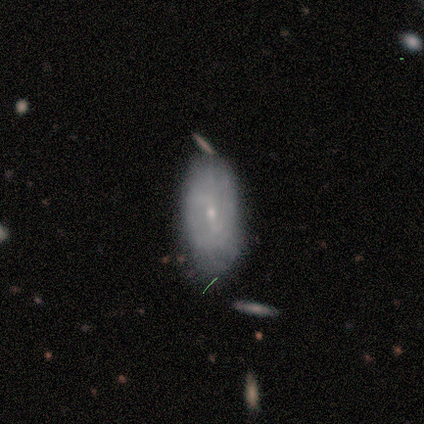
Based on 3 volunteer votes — A smooth galaxy with no disk features (67%) that is in between round and cigar-shaped (100%). Merging: none (33%, tied with minor disturbance and major disturbance).